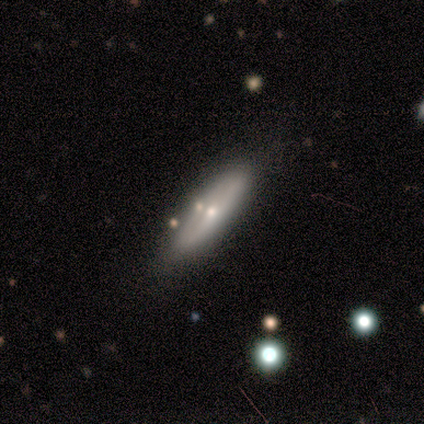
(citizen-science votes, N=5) A smooth galaxy with no disk features (60%) that is in between round and cigar-shaped (67%). Merging: none (80%).